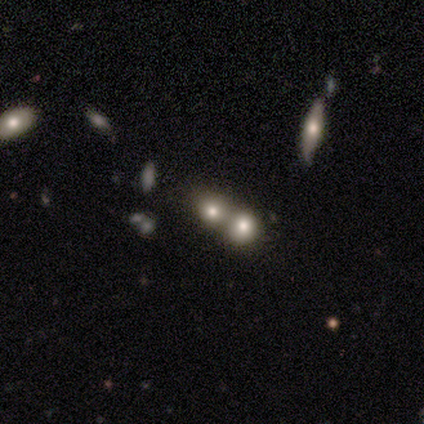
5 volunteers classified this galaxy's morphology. Smooth or featured? 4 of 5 (80%) said smooth. How rounded? 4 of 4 (100%) said round. Merging? 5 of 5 (100%) said merger.